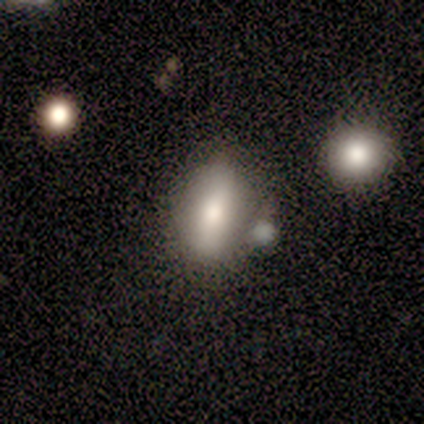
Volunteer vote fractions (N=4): Smooth or featured? 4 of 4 (100%) said smooth. How rounded? 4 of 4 (100%) said in between. Merging? 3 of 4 (75%) said minor disturbance.